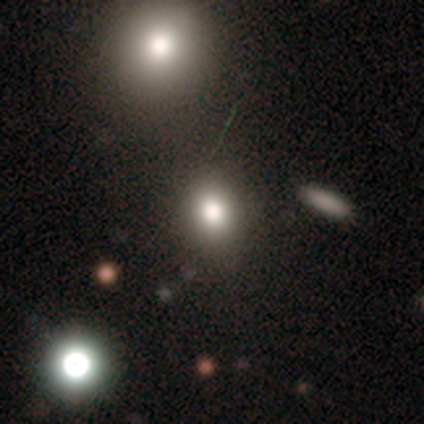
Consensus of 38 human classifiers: smooth_or_featured: smooth (p=0.71) [alt: star or artifact p=0.21]
how_rounded: in between (p=0.56) [alt: round p=0.44]
merging: none (p=0.87) [alt: minor disturbance p=0.07]